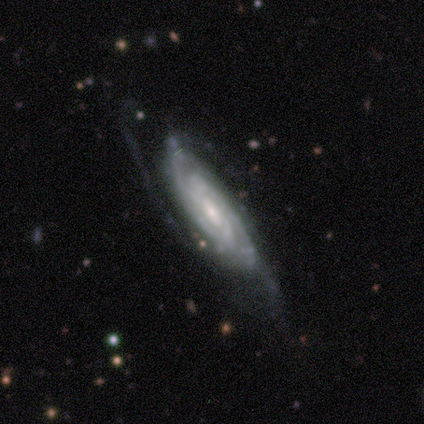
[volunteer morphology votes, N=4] Overall: featured or disk (75%). Edge-on disk: no (100%). Bar: weak (67%; no 33%). Spiral arms: yes (100%). Spiral arm count: 3 (67%; can't tell 33%). Spiral winding: tight (67%; medium 33%). Bulge size: moderate (67%; small 33%). Merging: none (75%).